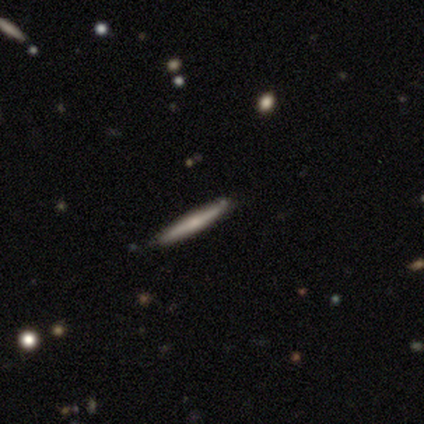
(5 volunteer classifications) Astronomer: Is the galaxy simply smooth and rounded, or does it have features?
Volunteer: smooth — 40%, tied with star or artifact at 40%.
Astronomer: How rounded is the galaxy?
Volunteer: cigar-shaped — 100%.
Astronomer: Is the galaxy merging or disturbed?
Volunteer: none — 100%.